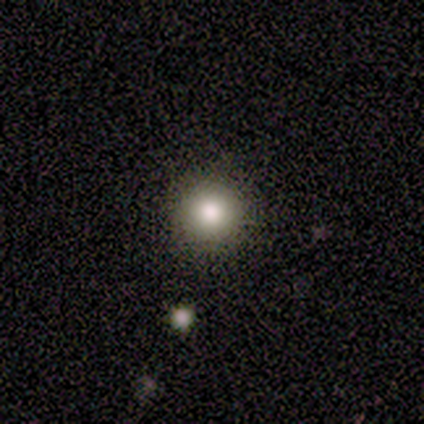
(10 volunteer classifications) smooth_or_featured: smooth (p=1.00)
how_rounded: round (p=1.00)
merging: none (p=0.90) [alt: minor disturbance p=0.10]